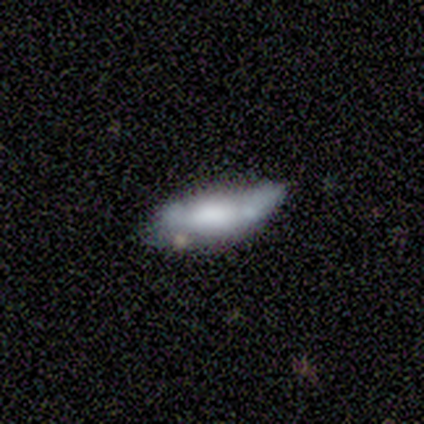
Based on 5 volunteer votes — smooth 60%, featured or disk 40%, star or artifact 0%. Down the decision tree: how rounded — cigar-shaped (67%); merging — none (60%).